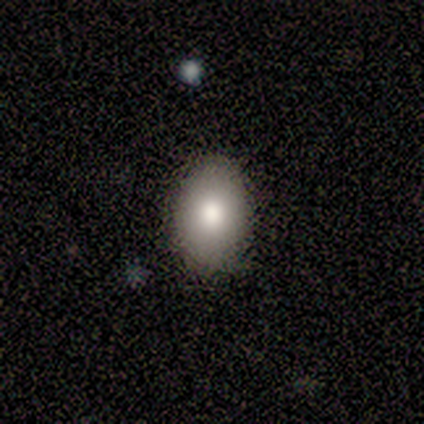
Smooth or featured? 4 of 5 (80%) said smooth. How rounded? 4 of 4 (100%) said in between. Merging? 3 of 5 (60%) said minor disturbance.